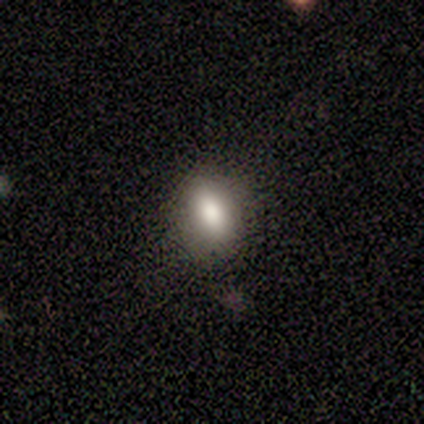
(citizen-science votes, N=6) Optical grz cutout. It shows a smooth galaxy with no disk features (100%) that is in between round and cigar-shaped (83%). Merging: none (67%).